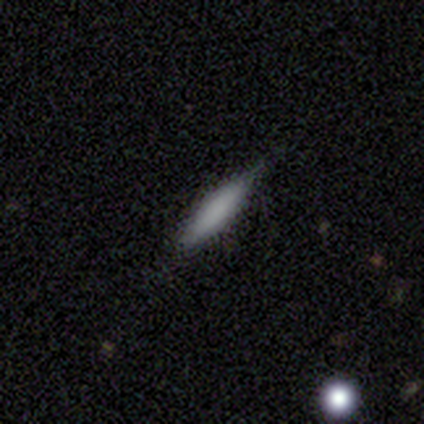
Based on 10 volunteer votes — smooth 90%, star or artifact 10%, featured or disk 0%. Down the decision tree: how rounded — cigar-shaped (89%); merging — none (89%).